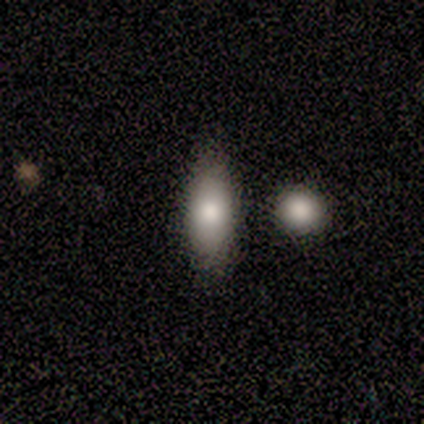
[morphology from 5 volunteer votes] smooth-or-featured: smooth: 80% | featured or disk: 20% | star or artifact: 0%
  how-rounded: in between: 75% | cigar-shaped: 25% | round: 0%
  merging: none: 80% | minor disturbance: 20% | major disturbance: 0% | merger: 0%